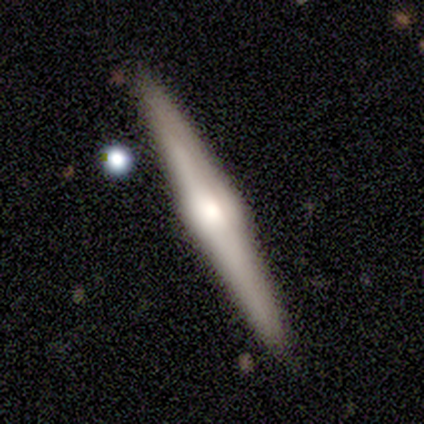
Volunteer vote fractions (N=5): Smooth or featured?
  - smooth: 60% *
  - featured or disk: 40%
  - star or artifact: 0%
How rounded?
  - cigar-shaped: 100% *
  - round: 0%
  - in between: 0%
Merging?
  - none: 60% *
  - minor disturbance: 40%
  - major disturbance: 0%
  - merger: 0%